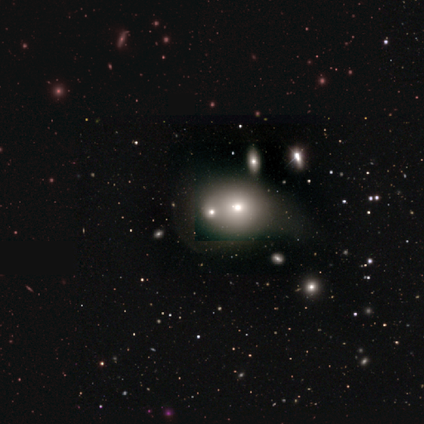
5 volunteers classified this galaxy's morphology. smooth 80%, featured or disk 20%, star or artifact 0%. Down the decision tree: how rounded — round (100%); merging — merger (60%).